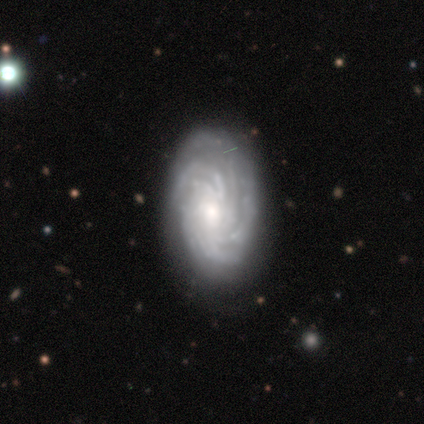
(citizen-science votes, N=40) smooth-or-featured: featured or disk: 90% | smooth: 10% | star or artifact: 0%
  disk-edge-on: no: 100% | yes: 0%
    bar: no: 78% | weak: 22% | strong: 0%
    has-spiral-arms: yes: 100% | no: 0%
      spiral-winding: tight: 72% | medium: 22% | loose: 6%
      spiral-arm-count: more than 4: 56% | can't tell: 36% | 3: 6% | 4: 3% | 1: 0% | 2: 0%
    bulge-size: small: 47% | moderate: 42% | large: 8% | none: 3% | dominant: 0%
  merging: none: 82% | minor disturbance: 10% | major disturbance: 8% | merger: 0%